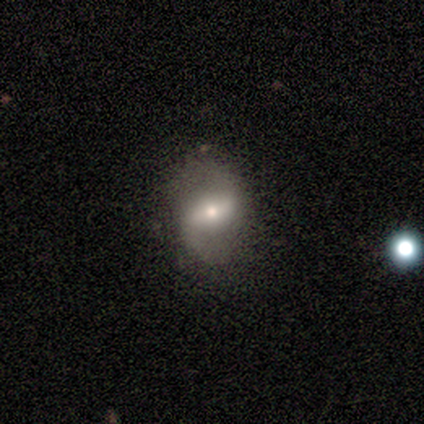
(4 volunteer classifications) This is clearly a featured or disk galaxy (100%). It is clearly not viewed edge-on (100%). Bar: likely strong (75%). Spiral arm pattern: clearly yes (100%). Spiral arm count: clearly 2 (100%). Spiral winding: clearly loose (100%). Central bulge: clearly moderate (100%). Merging: clearly none (100%).